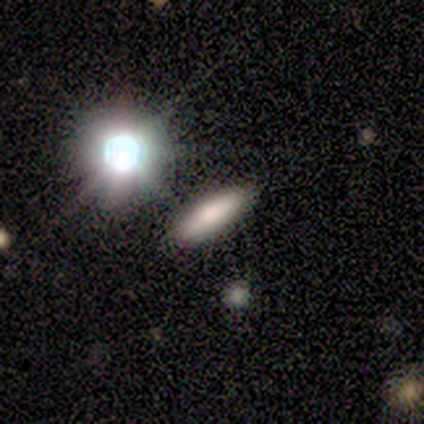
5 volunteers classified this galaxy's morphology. Smooth or featured? smooth (60%)
How rounded? cigar-shaped (100%)
Merging? none (67%)